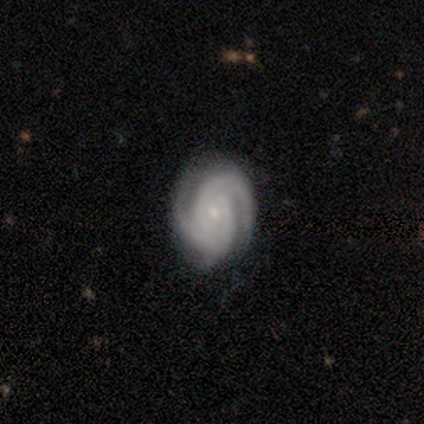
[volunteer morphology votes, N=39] Smooth or featured? featured or disk (85%)
Edge-on disk? no (97%)
Bar? no (69%)
Spiral arms? yes (100%)
Spiral winding? tight (75%)
Spiral arm count? 2 (53%)
Bulge size? small (84%)
Merging? none (79%)